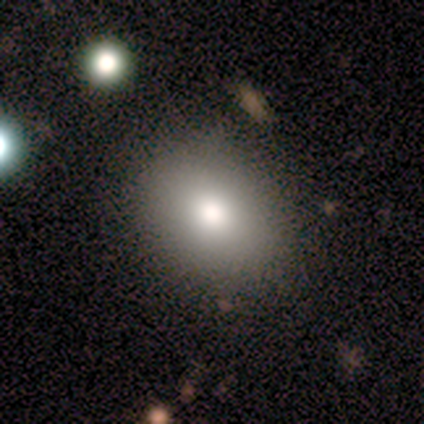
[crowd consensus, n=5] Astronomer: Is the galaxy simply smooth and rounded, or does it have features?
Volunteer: smooth — 80%.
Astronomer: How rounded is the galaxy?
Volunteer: in between — 75%.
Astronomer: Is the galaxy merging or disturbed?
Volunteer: none — 100%.